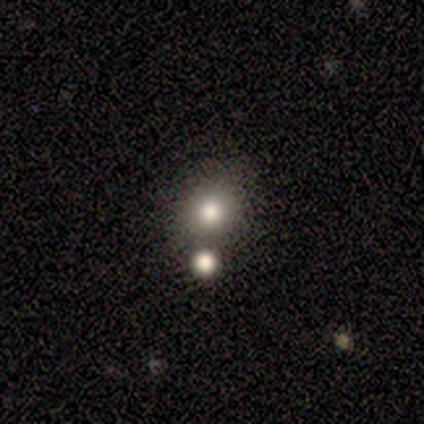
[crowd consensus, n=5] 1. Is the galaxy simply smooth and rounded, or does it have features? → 80% smooth, 20% star or artifact, 0% featured or disk.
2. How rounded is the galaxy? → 100% round, 0% in between, 0% cigar-shaped.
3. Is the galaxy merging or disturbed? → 50% none (tied), 50% merger (tied), 0% minor disturbance, 0% major disturbance.